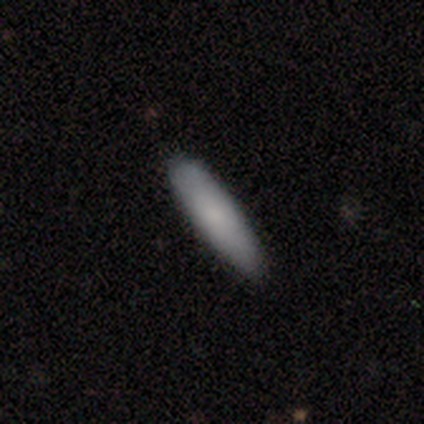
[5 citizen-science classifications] A smooth galaxy with no disk features (40%, tied with featured or disk) that is cigar-shaped (100%). Merging: none (100%).